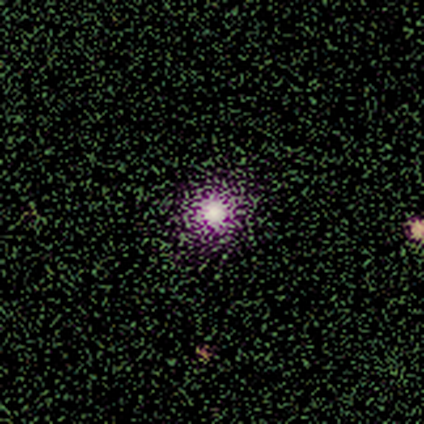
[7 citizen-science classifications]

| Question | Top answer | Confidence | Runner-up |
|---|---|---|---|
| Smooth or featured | star or artifact | 57% | smooth (43%) |